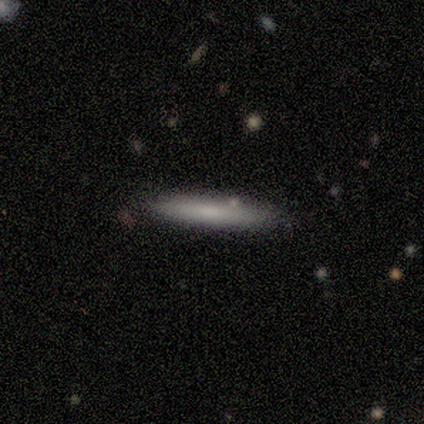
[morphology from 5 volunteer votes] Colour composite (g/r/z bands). It shows a smooth galaxy with no disk features (100%) that is cigar-shaped (100%). Merging: none (100%).